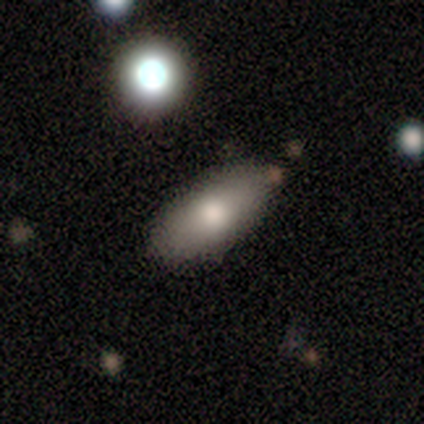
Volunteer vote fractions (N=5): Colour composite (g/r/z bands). It shows a smooth galaxy with no disk features (100%) that is in between round and cigar-shaped (80%). Merging: none (100%).